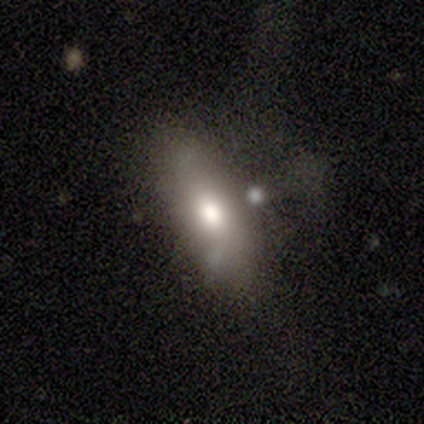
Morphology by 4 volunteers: type=smooth (50%); roundness=in between (100%); merging=none (67%).